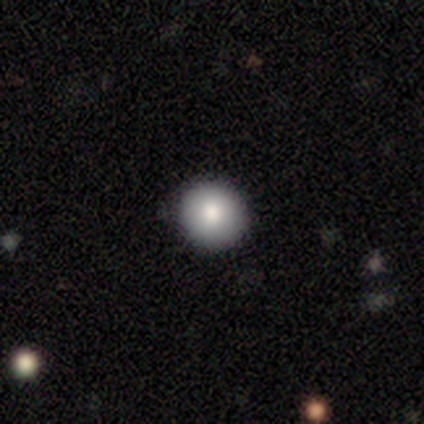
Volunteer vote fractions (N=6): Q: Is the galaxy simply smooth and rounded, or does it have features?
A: smooth — 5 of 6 (83%).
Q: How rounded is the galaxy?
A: round — 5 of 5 (100%).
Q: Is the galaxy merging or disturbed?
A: none — 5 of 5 (100%).